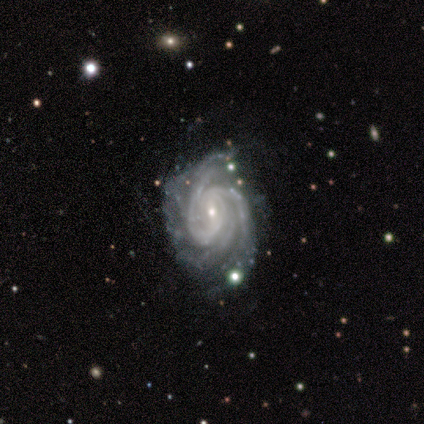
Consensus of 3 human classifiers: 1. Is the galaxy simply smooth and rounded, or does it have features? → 100% featured or disk, 0% smooth, 0% star or artifact.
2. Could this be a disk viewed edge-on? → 67% no, 33% yes.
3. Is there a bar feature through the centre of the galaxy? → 50% weak (tied), 50% no (tied), 0% strong.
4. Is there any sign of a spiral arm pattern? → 100% yes, 0% no.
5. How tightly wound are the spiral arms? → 100% tight, 0% medium, 0% loose.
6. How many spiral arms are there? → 50% 3 (tied), 50% more than 4 (tied), 0% 1, 0% 2, 0% 4, 0% can't tell.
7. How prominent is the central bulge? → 50% moderate (tied), 50% small (tied), 0% dominant, 0% large, 0% none.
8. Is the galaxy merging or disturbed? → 67% major disturbance, 33% none, 0% minor disturbance, 0% merger.